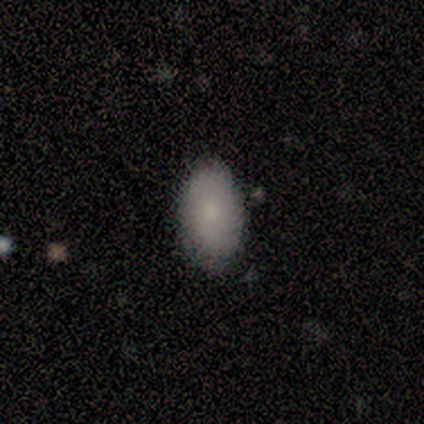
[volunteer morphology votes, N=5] A smooth galaxy with no disk features (80%) that is in between round and cigar-shaped (100%).

Vote fractions:
- Smooth or featured? smooth: 80% / star or artifact: 20% / featured or disk: 0%
- How rounded? in between: 100% / round: 0% / cigar-shaped: 0%
- Merging? none: 75% / major disturbance: 25% / minor disturbance: 0% / merger: 0%